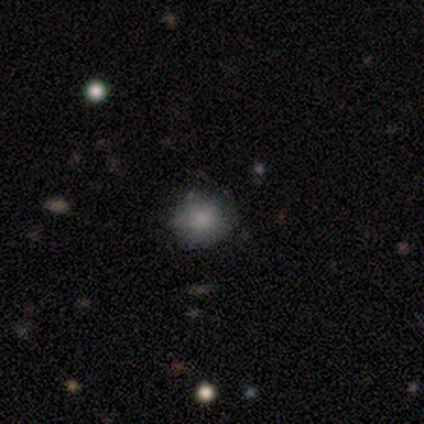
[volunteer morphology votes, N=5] This appears to be a smooth galaxy with no disk features (100%) that is round (100%). Merging: none (100%).